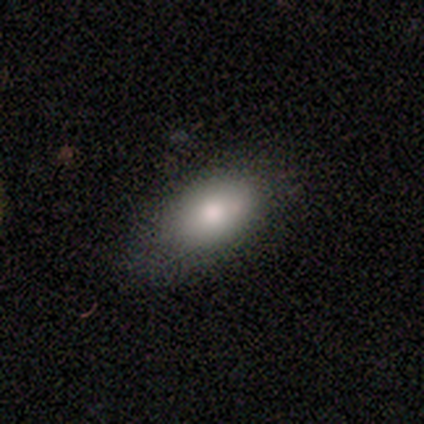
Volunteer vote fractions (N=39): smooth_or_featured: smooth (p=0.77) [alt: featured or disk p=0.13]
how_rounded: in between (p=0.93) [alt: round p=0.03]
merging: none (p=0.69) [alt: minor disturbance p=0.20]